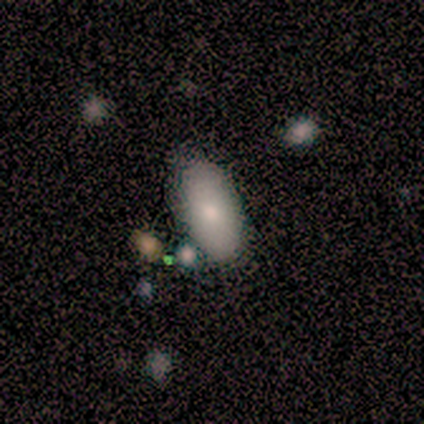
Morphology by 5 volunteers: smooth 80%, featured or disk 20%, star or artifact 0%. Down the decision tree: how rounded — in between (100%); merging — none (60%).